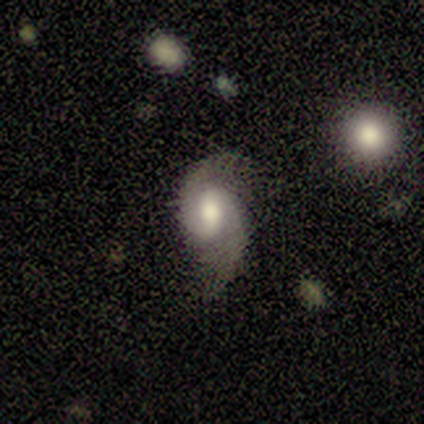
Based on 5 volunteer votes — Q: Smooth or featured?
A: featured or disk (100%)
Q: Edge-on disk?
A: no (100%)
Q: Bar?
A: weak (80%); runner-up: no (20%)
Q: Spiral arms?
A: yes (80%); runner-up: no (20%)
Q: Spiral winding?
A: tight (75%); runner-up: medium (25%)
Q: Spiral arm count?
A: 2 (100%)
Q: Bulge size?
A: moderate (60%); runner-up: large (40%)
Q: Merging?
A: minor disturbance (60%); runner-up: none (40%)